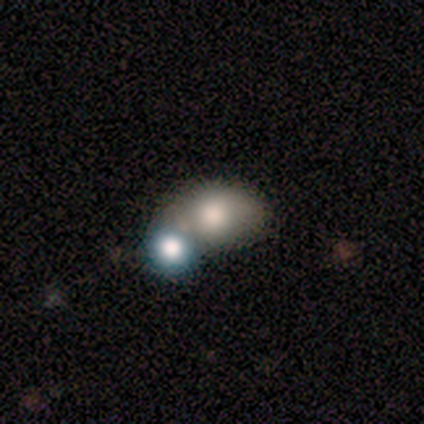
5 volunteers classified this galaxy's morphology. This appears to be a smooth galaxy with no disk features (80%) that is in between round and cigar-shaped (100%). Merging: none (60%).